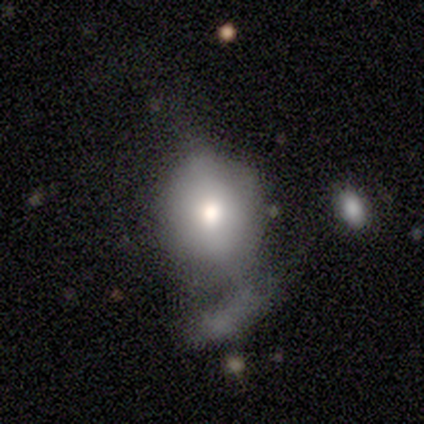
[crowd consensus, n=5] Q: Smooth or featured?
A: smooth (40%); tied with: featured or disk (40%)
Q: How rounded?
A: round (100%)
Q: Merging?
A: none (50%); runner-up: major disturbance (25%)